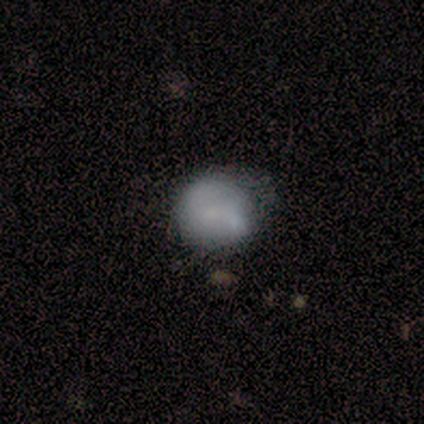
Smooth or featured? 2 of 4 (50%) said smooth. How rounded? 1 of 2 (50%, tied with in between) said round. Merging? 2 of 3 (67%) said none.